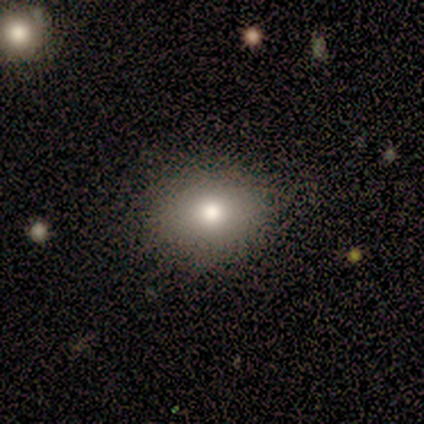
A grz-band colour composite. It shows a smooth galaxy with no disk features (80%) that is in between round and cigar-shaped (75%). Merging: none (75%).